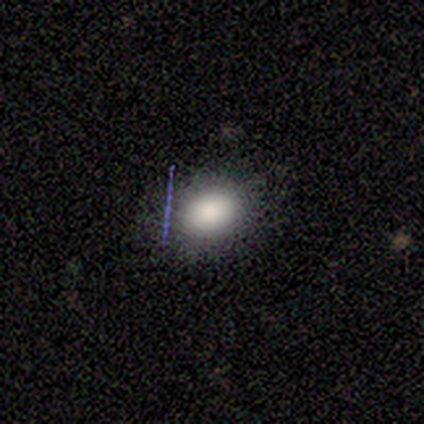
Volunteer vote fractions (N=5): Q: Smooth or featured?
A: smooth (80%); runner-up: star or artifact (20%)
Q: How rounded?
A: in between (75%); runner-up: round (25%)
Q: Merging?
A: none (75%); runner-up: minor disturbance (25%)